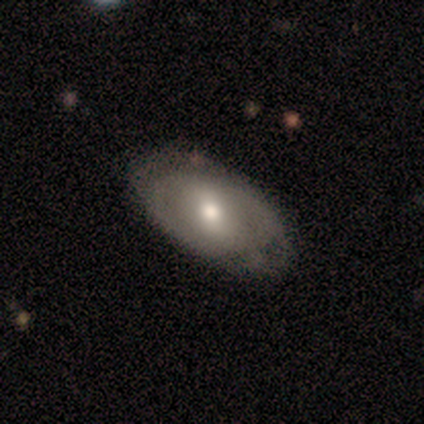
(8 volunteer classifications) This is likely a featured or disk galaxy (62%). It is clearly not viewed edge-on (100%). Bar: marginally strong (40%, tied with weak). Spiral arm pattern: likely no (60%). Central bulge: clearly moderate (80%). Merging: possibly none (50%, tied with minor disturbance).